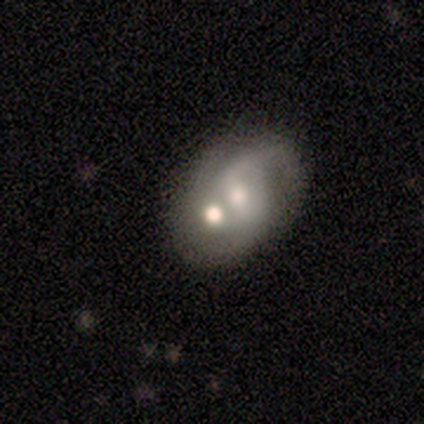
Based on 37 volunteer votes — Morphology: type=featured or disk (54%); edge-on=no (100%); bar=weak (45%, tied with no); spiral arms=yes (65%); winding=loose (85%); arm count=2 (46%); bulge=moderate (75%); merging=merger (61%).